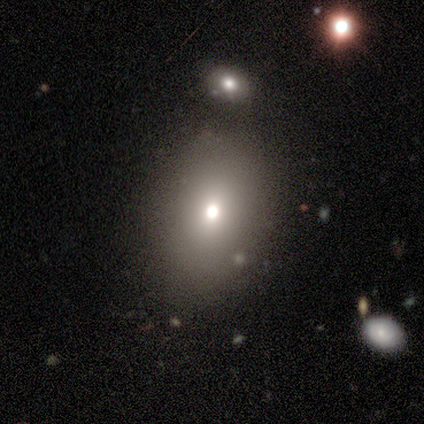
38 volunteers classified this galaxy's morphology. This is clearly a smooth galaxy (89%). How rounded: likely in between (71%). Merging: likely none (69%).